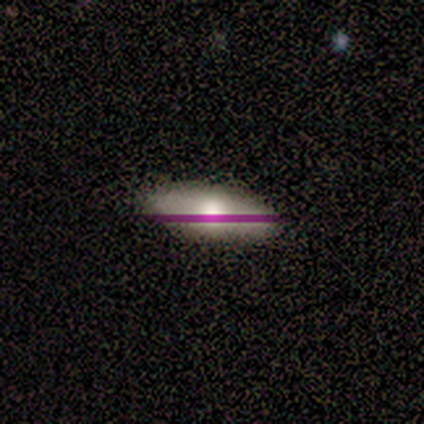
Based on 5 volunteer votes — Volunteers were most divided on "merging": none: 80%, minor disturbance: 20%, major disturbance: 0%, merger: 0%. More confident: smooth or featured — smooth (100%); how rounded — in between (100%).